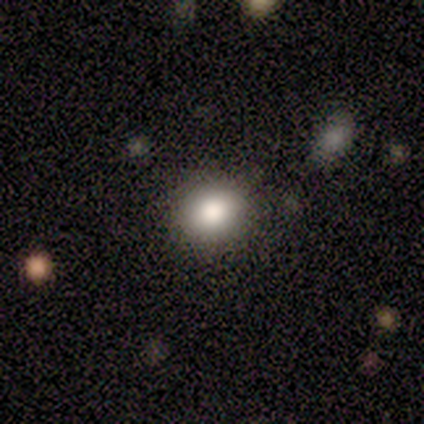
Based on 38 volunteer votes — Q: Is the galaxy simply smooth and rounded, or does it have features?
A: smooth — 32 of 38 (84%).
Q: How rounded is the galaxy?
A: round — 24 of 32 (75%).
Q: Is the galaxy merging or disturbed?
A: none — 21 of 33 (64%).